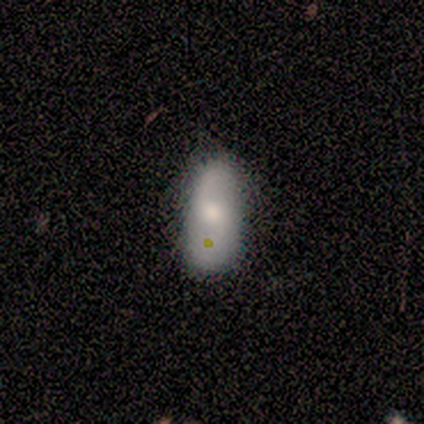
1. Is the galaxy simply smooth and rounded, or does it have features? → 57% smooth, 43% featured or disk, 0% star or artifact.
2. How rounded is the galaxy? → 100% in between, 0% round, 0% cigar-shaped.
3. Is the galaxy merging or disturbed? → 71% none, 29% minor disturbance, 0% major disturbance, 0% merger.